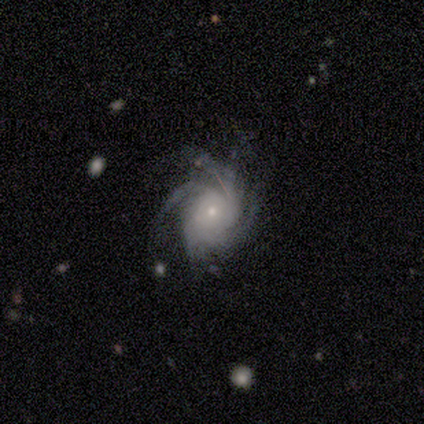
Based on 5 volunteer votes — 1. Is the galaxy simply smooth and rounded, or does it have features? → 100% featured or disk, 0% smooth, 0% star or artifact.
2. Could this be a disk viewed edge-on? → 100% no, 0% yes.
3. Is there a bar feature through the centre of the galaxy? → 100% no, 0% strong, 0% weak.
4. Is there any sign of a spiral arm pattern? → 100% yes, 0% no.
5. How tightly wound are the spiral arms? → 80% tight, 20% medium, 0% loose.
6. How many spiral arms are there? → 40% 4 (tied), 40% more than 4 (tied), 20% can't tell, 0% 1, 0% 2, 0% 3.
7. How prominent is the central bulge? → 100% small, 0% dominant, 0% large, 0% moderate, 0% none.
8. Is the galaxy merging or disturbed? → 80% none, 20% minor disturbance, 0% major disturbance, 0% merger.